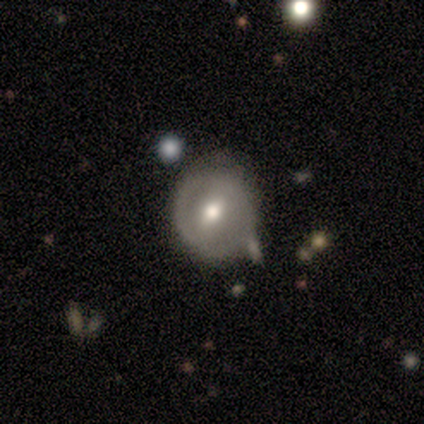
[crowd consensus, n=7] Volunteers were most divided on "smooth or featured": smooth: 57%, featured or disk: 43%, star or artifact: 0%. More confident: how rounded — round (100%); merging — none (57%).